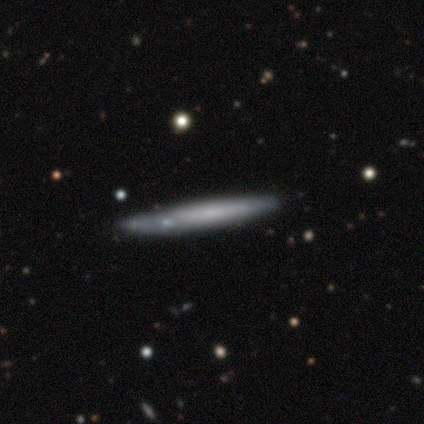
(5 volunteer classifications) Q: Smooth or featured?
A: smooth (40%); tied with: featured or disk (40%)
Q: How rounded?
A: cigar-shaped (100%)
Q: Merging?
A: none (75%); runner-up: minor disturbance (25%)